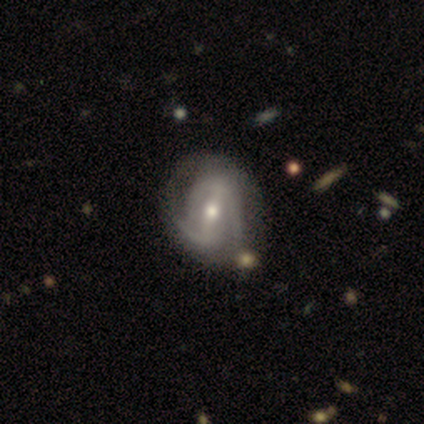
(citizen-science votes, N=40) Overall: featured or disk (98%). Edge-on disk: no (95%). Bar: strong (49%; weak 38%). Spiral arms: yes (86%). Spiral arm count: 2 (75%). Spiral winding: tight (53%; medium 28%). Bulge size: moderate (59%; small 41%). Merging: none (38%; minor disturbance 22%).